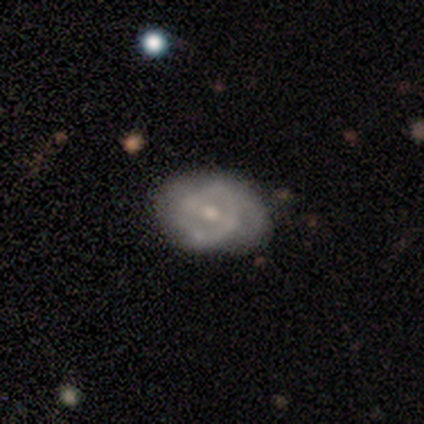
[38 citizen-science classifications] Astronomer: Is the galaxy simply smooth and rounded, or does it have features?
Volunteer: featured or disk — 71%.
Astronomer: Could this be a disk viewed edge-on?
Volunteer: no — 100%.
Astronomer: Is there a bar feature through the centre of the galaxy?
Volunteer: weak — 44% (runner-up: no, 33%).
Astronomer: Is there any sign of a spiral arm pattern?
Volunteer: no — 52% (runner-up: yes, 48%).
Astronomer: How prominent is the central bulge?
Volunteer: moderate — 59%.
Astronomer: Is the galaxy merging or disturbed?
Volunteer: none — 39% (runner-up: minor disturbance, 26%).